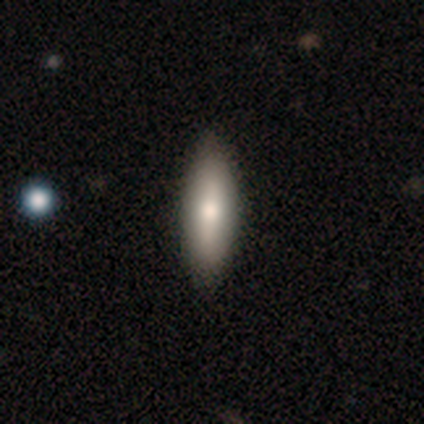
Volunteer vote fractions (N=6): A featured or disk galaxy (67%) viewed edge-on (50%, tied with no) with a rounded central bulge (100%). Merging: none (80%).